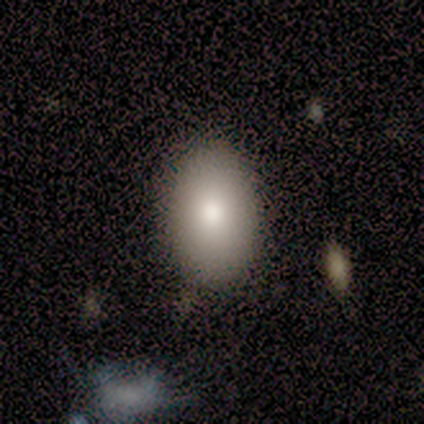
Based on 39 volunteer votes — smooth-or-featured: smooth: 87% | featured or disk: 10% | star or artifact: 3%
  how-rounded: in between: 85% | round: 9% | cigar-shaped: 6%
  merging: none: 84% | minor disturbance: 11% | major disturbance: 3% | merger: 3%